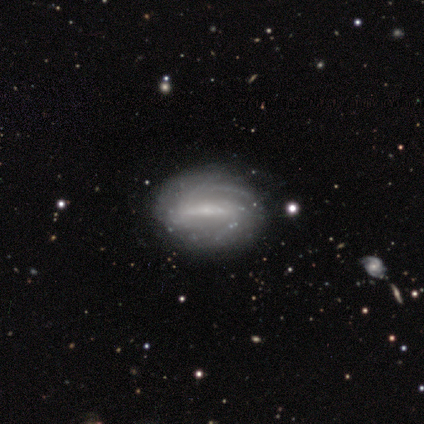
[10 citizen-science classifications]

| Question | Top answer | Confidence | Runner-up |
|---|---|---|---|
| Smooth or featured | featured or disk | 90% | star or artifact (10%) |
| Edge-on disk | no | 100% | — |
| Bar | strong | 89% | weak (11%) |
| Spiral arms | yes | 89% | no (11%) |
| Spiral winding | tight | 62% | medium (38%) |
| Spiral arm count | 2 | 50% | can't tell (25%) |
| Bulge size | small | 78% | large (11%) |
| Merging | none | 89% | minor disturbance (11%) |